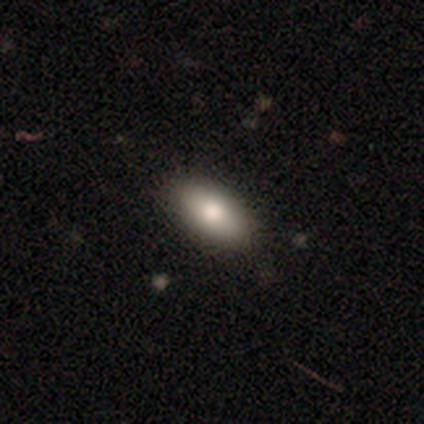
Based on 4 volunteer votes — Smooth or featured? 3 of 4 (75%) said smooth. How rounded? 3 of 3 (100%) said in between. Merging? 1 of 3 (33%, tied with minor disturbance and merger) said none.